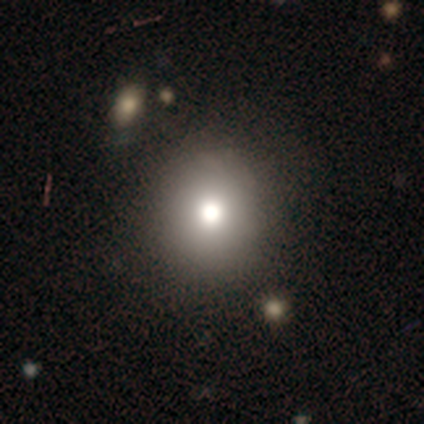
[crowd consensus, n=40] Overall: smooth (70%). How rounded: round (79%). Merging: none (86%).